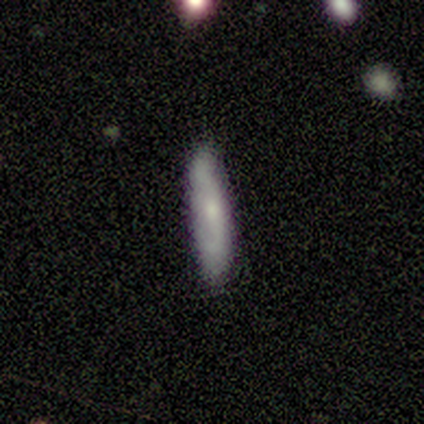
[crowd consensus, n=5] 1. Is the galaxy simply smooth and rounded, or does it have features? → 60% featured or disk, 40% smooth, 0% star or artifact.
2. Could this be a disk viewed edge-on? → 67% no, 33% yes.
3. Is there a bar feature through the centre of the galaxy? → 50% strong (tied), 50% no (tied), 0% weak.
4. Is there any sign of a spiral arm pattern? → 100% yes, 0% no.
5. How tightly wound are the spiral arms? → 100% loose, 0% tight, 0% medium.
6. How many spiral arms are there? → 100% 2, 0% 1, 0% 3, 0% 4, 0% more than 4, 0% can't tell.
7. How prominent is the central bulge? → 100% small, 0% dominant, 0% large, 0% moderate, 0% none.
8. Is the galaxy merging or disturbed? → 80% none, 20% minor disturbance, 0% major disturbance, 0% merger.